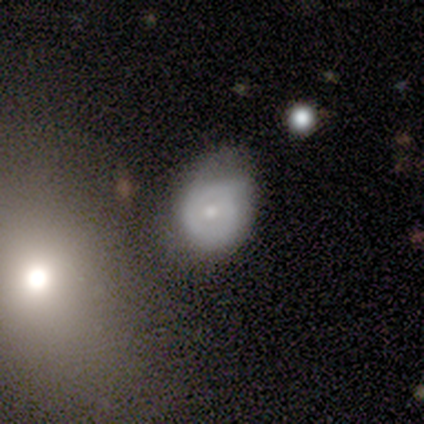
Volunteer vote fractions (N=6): A smooth galaxy with no disk features (50%, tied with featured or disk) that is in between round and cigar-shaped (67%).

Vote fractions:
- Smooth or featured? smooth: 50% (tied) / featured or disk: 50% (tied) / star or artifact: 0%
- How rounded? in between: 67% / round: 33% / cigar-shaped: 0%
- Merging? minor disturbance: 83% / none: 17% / major disturbance: 0% / merger: 0%